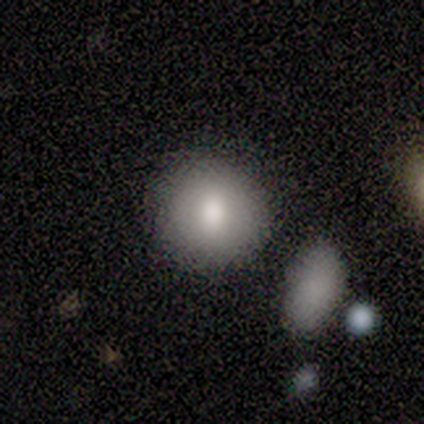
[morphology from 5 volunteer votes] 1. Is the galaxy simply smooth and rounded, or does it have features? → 100% smooth, 0% featured or disk, 0% star or artifact.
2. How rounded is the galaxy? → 100% round, 0% in between, 0% cigar-shaped.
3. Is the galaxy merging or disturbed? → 60% none, 20% minor disturbance, 20% merger, 0% major disturbance.